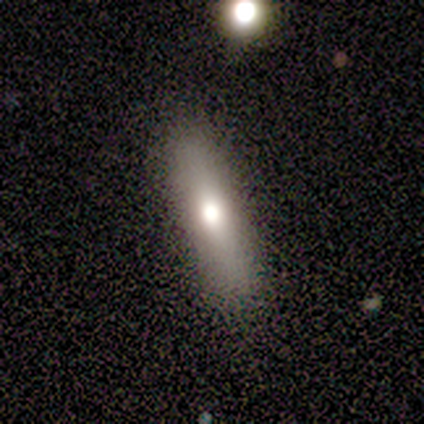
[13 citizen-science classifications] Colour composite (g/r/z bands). It shows a smooth galaxy with no disk features (54%) that is cigar-shaped (71%). Merging: none (91%).